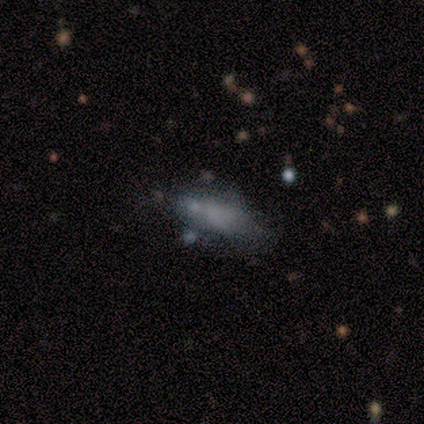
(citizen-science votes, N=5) Volunteers were most divided on "smooth or featured" (2-way tie): smooth: 40%, featured or disk: 40%, star or artifact: 20%; "how rounded" (2-way tie): in between: 50%, cigar-shaped: 50%, round: 0%; "merging" (4-way tie): none: 25%, minor disturbance: 25%, major disturbance: 25%, merger: 25%.